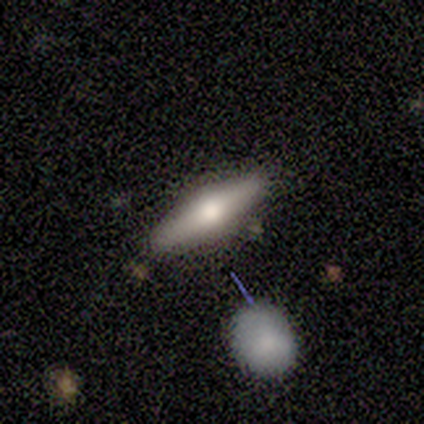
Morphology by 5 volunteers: smooth_or_featured: featured or disk (p=0.60) [alt: smooth p=0.40]
disk_edge_on: yes (p=1.00)
edge_on_bulge: rounded (p=1.00)
merging: none (p=1.00)